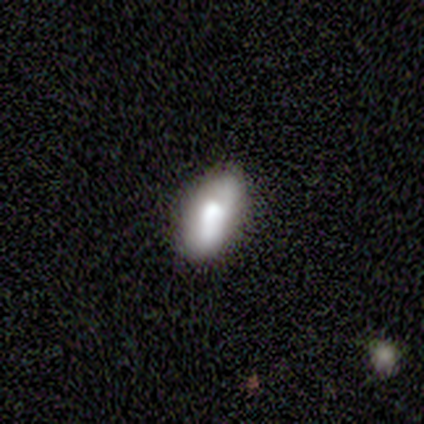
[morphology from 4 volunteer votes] smooth 75%, featured or disk 25%, star or artifact 0%. Down the decision tree: how rounded — in between (100%); merging — none (100%).